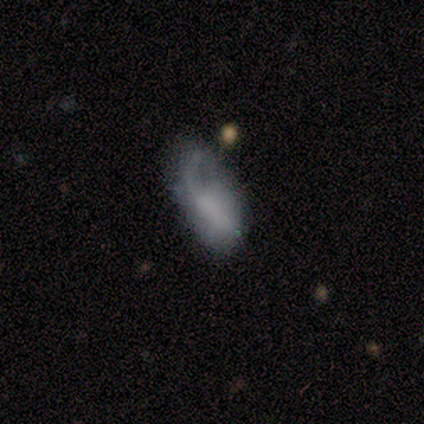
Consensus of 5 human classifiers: Smooth or featured?
  - smooth: 80% *
  - featured or disk: 20%
  - star or artifact: 0%
How rounded?
  - in between: 100% *
  - round: 0%
  - cigar-shaped: 0%
Merging?
  - major disturbance: 60% *
  - none: 20%
  - minor disturbance: 20%
  - merger: 0%